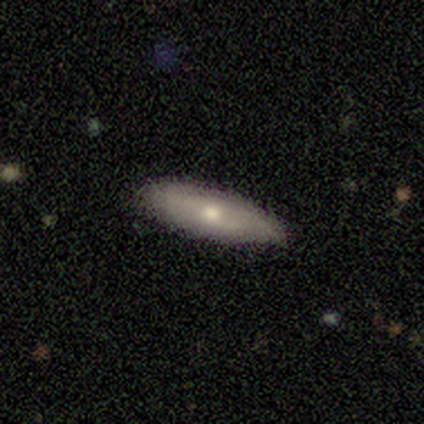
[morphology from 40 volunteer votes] Smooth or featured?
  - smooth: 50% *
  - featured or disk: 45%
  - star or artifact: 5%
How rounded?
  - in between: 60% *
  - cigar-shaped: 35%
  - round: 5%
Merging?
  - none: 82% *
  - minor disturbance: 11%
  - major disturbance: 8%
  - merger: 0%